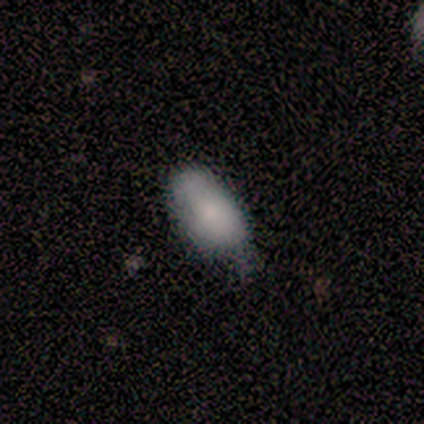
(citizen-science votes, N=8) smooth_or_featured: smooth (p=0.88) [alt: star or artifact p=0.12]
how_rounded: in between (p=1.00)
merging: minor disturbance (p=0.57) [alt: none p=0.43]